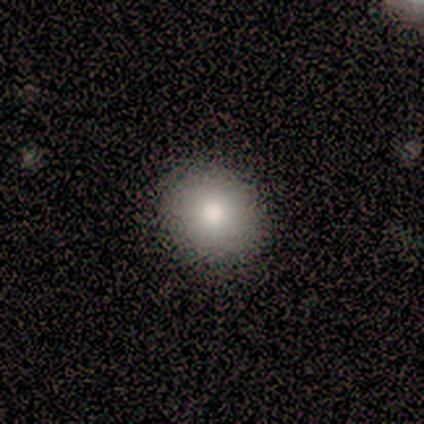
Smooth or featured? 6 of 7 (86%) said smooth. How rounded? 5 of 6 (83%) said round. Merging? 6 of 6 (100%) said none.